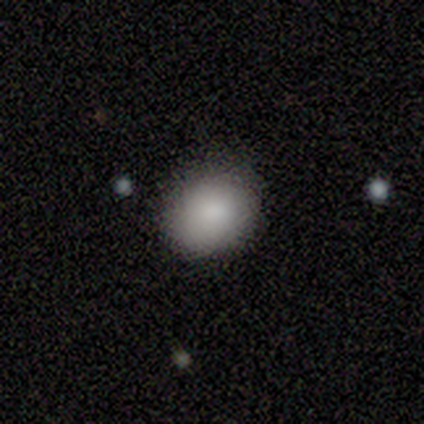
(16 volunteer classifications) Smooth or featured? 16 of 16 (100%) said smooth. How rounded? 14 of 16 (88%) said round. Merging? 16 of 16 (100%) said none.